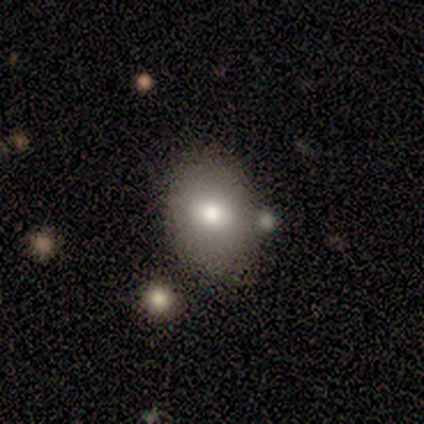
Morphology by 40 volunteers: This appears to be a smooth galaxy with no disk features (75%) that is in between round and cigar-shaped (63%). Merging: none (80%).